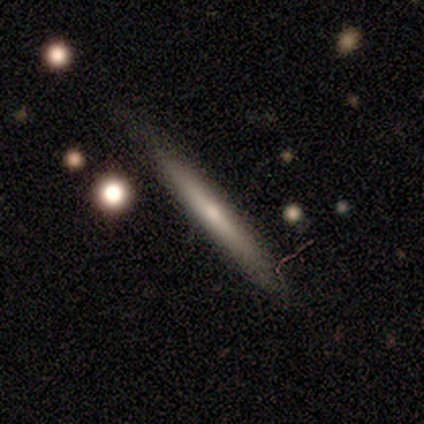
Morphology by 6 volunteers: Smooth or featured?
  - smooth: 83% *
  - star or artifact: 17%
  - featured or disk: 0%
How rounded?
  - cigar-shaped: 100% *
  - round: 0%
  - in between: 0%
Merging?
  - none: 100% *
  - minor disturbance: 0%
  - major disturbance: 0%
  - merger: 0%